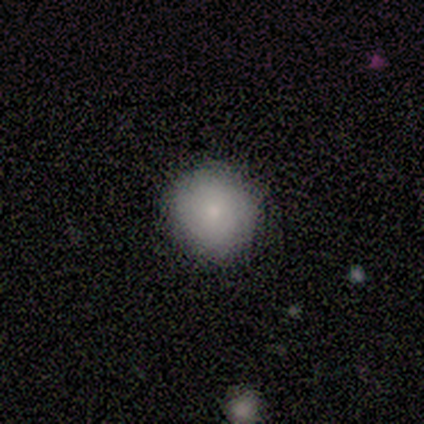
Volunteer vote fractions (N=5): A smooth galaxy with no disk features (80%) that is round (100%).

Vote fractions:
- Smooth or featured? smooth: 80% / star or artifact: 20% / featured or disk: 0%
- How rounded? round: 100% / in between: 0% / cigar-shaped: 0%
- Merging? none: 100% / minor disturbance: 0% / major disturbance: 0% / merger: 0%